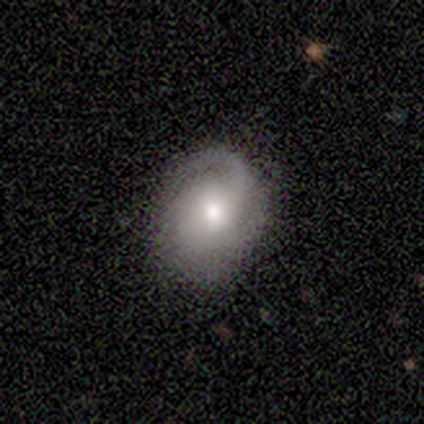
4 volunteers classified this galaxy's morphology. Smooth or featured: featured or disk — 75% (star or artifact — 25%)
Edge-on disk: no — 100%
Bar: no — 100%
Spiral arms: yes — 100%
Spiral winding: tight — 67% (loose — 33%)
Spiral arm count: 1 — 67% (2 — 33%)
Bulge size: moderate — 100%
Merging: none — 100%